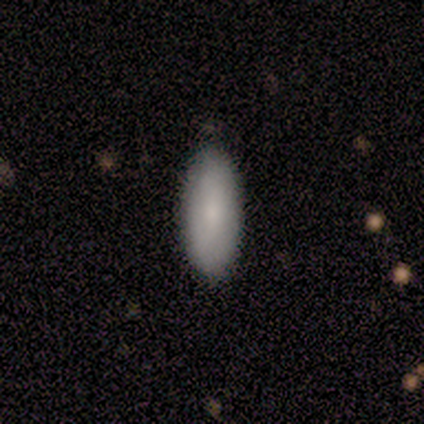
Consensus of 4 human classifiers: A smooth galaxy with no disk features (75%) that is in between round and cigar-shaped (100%).

Vote fractions:
- Smooth or featured? smooth: 75% / featured or disk: 25% / star or artifact: 0%
- How rounded? in between: 100% / round: 0% / cigar-shaped: 0%
- Merging? none: 75% / minor disturbance: 25% / major disturbance: 0% / merger: 0%